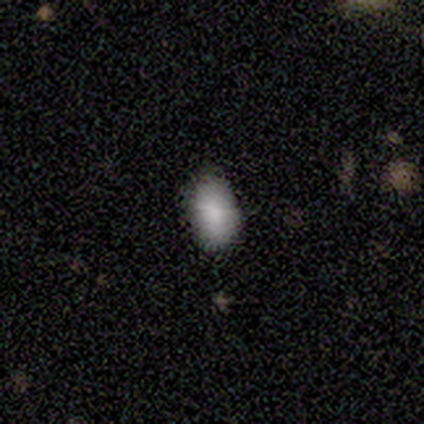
smooth 78%, featured or disk 22%, star or artifact 0%. Down the decision tree: how rounded — in between (100%); merging — none (100%).